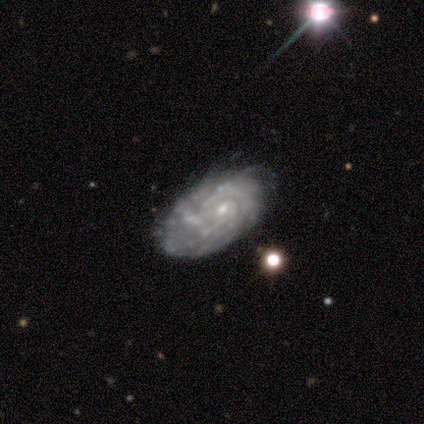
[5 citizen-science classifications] featured or disk 100%, smooth 0%, star or artifact 0%. Down the decision tree: edge-on disk — no (100%); bar — no (80%); spiral arms — yes (60%); spiral arm count — can't tell (67%); spiral winding — tight (100%); bulge size — small (60%); merging — none (40%, tied with minor disturbance).